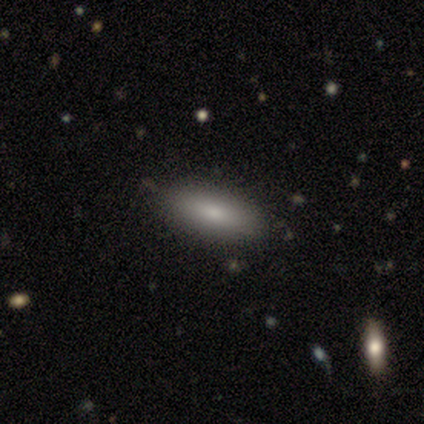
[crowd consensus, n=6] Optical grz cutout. It shows a smooth galaxy with no disk features (83%) that is in between round and cigar-shaped (60%). Merging: none (67%).